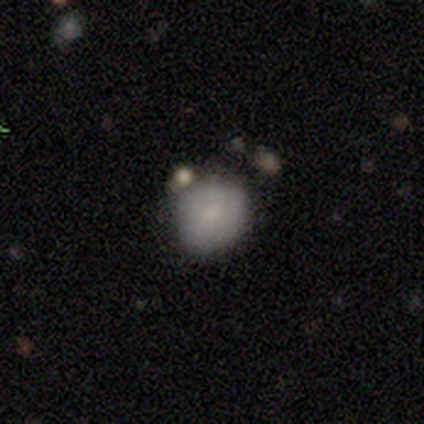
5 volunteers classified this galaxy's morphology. smooth-or-featured: smooth: 80% | featured or disk: 20% | star or artifact: 0%
  how-rounded: round: 100% | in between: 0% | cigar-shaped: 0%
  merging: none: 60% | merger: 40% | minor disturbance: 0% | major disturbance: 0%